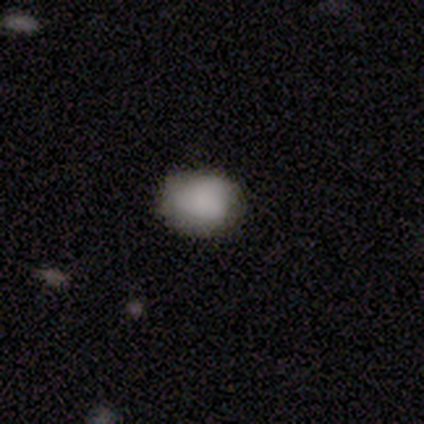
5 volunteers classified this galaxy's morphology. Smooth or featured: smooth — 100%
How rounded: in between — 80% (round — 20%)
Merging: none — 80% (minor disturbance — 20%)